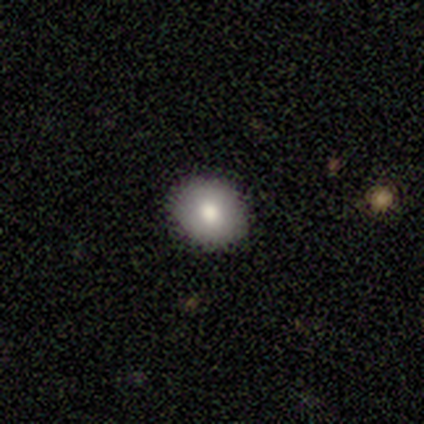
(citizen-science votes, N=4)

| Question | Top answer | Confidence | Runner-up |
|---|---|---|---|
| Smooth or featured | smooth | 75% | featured or disk (25%) |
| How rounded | round | 67% | in between (33%) |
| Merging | none | 75% | minor disturbance (25%) |